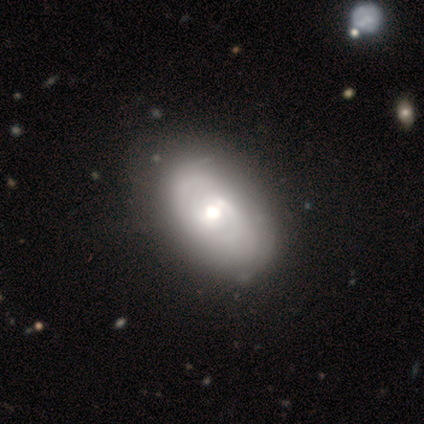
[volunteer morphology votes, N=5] Volunteers were most divided on "bulge size" (2-way tie): large: 40%, moderate: 40%, small: 20%, dominant: 0%, none: 0%; "merging" (2-way tie): none: 40%, minor disturbance: 40%, merger: 20%, major disturbance: 0%. More confident: smooth or featured — featured or disk (100%); edge-on disk — no (100%); bar — no (60%); spiral arms — no (60%).